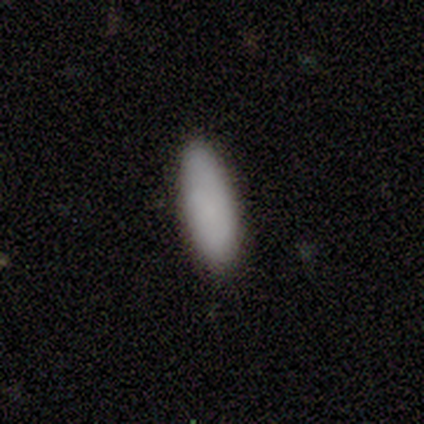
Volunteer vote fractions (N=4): Overall: smooth (75%). How rounded: cigar-shaped (67%; in between 33%). Merging: none (100%).